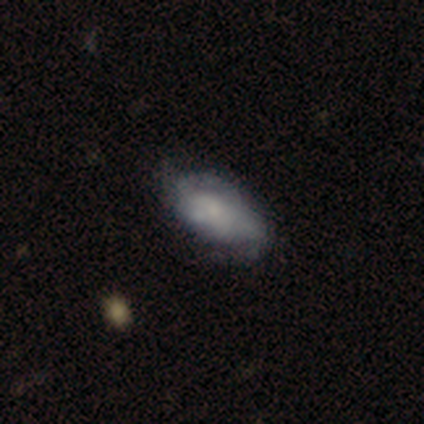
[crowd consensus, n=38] smooth-or-featured: smooth: 45% (tied) | featured or disk: 45% (tied) | star or artifact: 11%
  how-rounded: in between: 94% | round: 6% | cigar-shaped: 0%
  merging: none: 65% | minor disturbance: 29% | major disturbance: 3% | merger: 3%